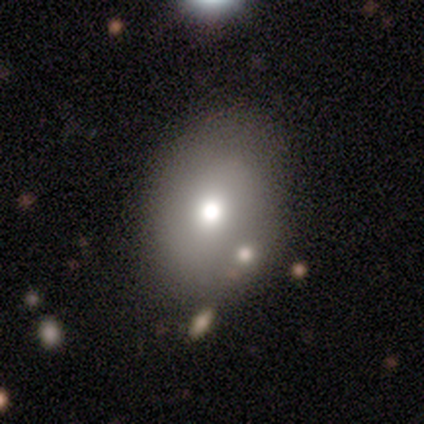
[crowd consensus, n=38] This appears to be a smooth galaxy with no disk features (71%) that is in between round and cigar-shaped (74%). Merging: none (80%).